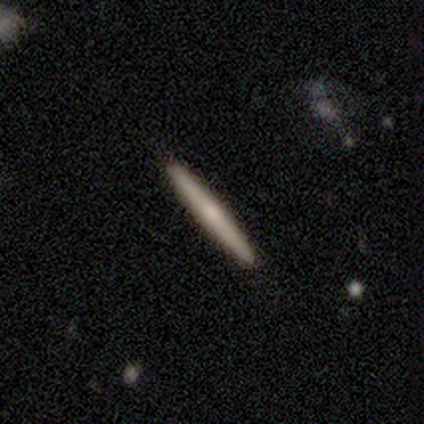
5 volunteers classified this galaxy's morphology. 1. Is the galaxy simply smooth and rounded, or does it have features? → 60% featured or disk, 40% smooth, 0% star or artifact.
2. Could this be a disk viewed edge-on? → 100% yes, 0% no.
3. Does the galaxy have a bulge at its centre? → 67% rounded, 33% none, 0% boxy.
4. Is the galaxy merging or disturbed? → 100% none, 0% minor disturbance, 0% major disturbance, 0% merger.